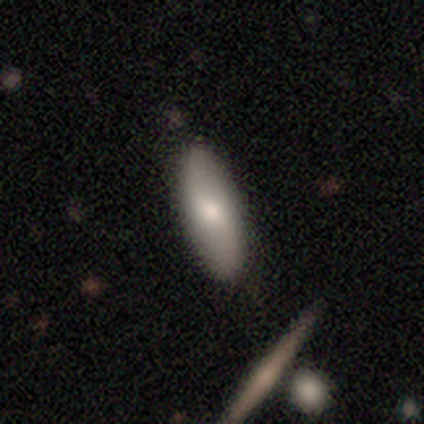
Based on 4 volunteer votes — Volunteers were most divided on "smooth or featured": smooth: 75%, featured or disk: 25%, star or artifact: 0%. More confident: how rounded — in between (100%); merging — none (100%).